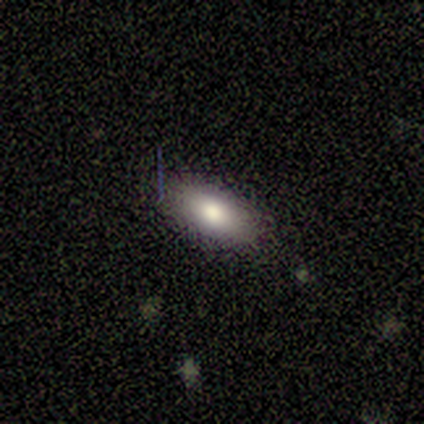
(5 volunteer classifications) smooth-or-featured: smooth: 60% | featured or disk: 40% | star or artifact: 0%
  how-rounded: in between: 67% | round: 33% | cigar-shaped: 0%
  merging: none: 80% | minor disturbance: 20% | major disturbance: 0% | merger: 0%